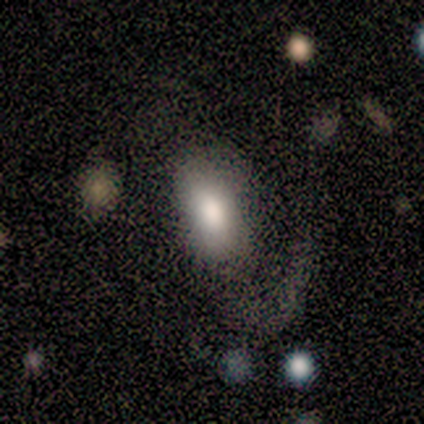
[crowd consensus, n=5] A smooth galaxy with no disk features (100%) that is in between round and cigar-shaped (100%).

Vote fractions:
- Smooth or featured? smooth: 100% / featured or disk: 0% / star or artifact: 0%
- How rounded? in between: 100% / round: 0% / cigar-shaped: 0%
- Merging? none: 40% (tied) / major disturbance: 40% (tied) / minor disturbance: 20% / merger: 0%